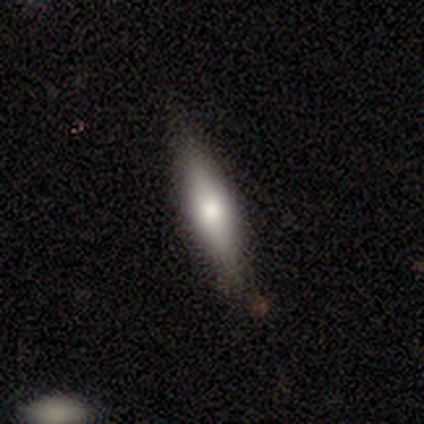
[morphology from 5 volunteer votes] A smooth galaxy with no disk features (60%) that is in between round and cigar-shaped (67%). Merging: none (100%).